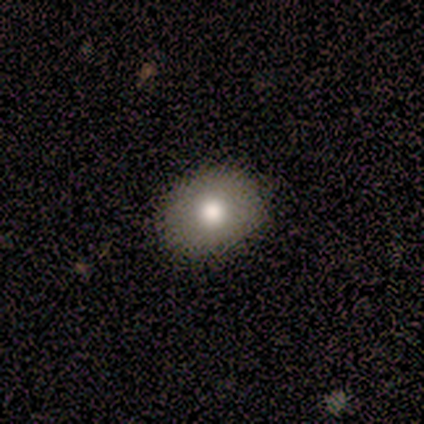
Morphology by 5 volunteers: Smooth or featured? 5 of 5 (100%) said smooth. How rounded? 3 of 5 (60%) said round. Merging? 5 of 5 (100%) said none.